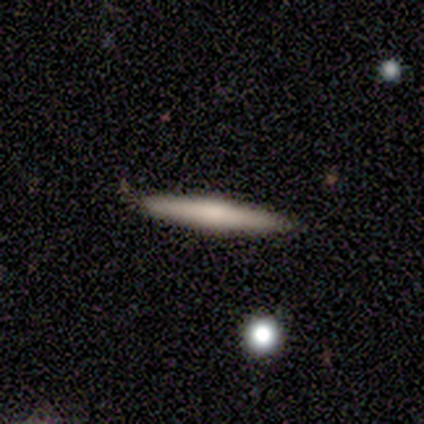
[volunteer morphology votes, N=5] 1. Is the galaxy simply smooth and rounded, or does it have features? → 60% smooth, 40% featured or disk, 0% star or artifact.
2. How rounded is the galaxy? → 100% cigar-shaped, 0% round, 0% in between.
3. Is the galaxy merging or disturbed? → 100% none, 0% minor disturbance, 0% major disturbance, 0% merger.